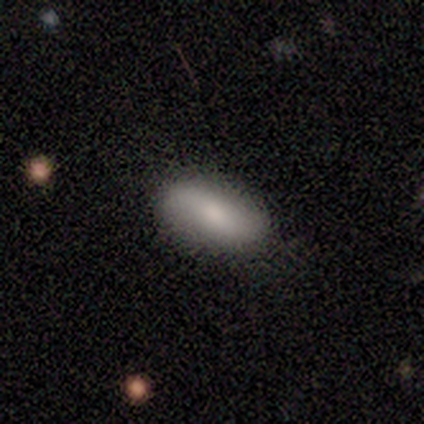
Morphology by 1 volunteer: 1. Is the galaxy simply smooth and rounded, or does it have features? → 100% featured or disk, 0% smooth, 0% star or artifact.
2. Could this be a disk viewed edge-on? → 100% no, 0% yes.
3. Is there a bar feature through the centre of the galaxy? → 100% weak, 0% strong, 0% no.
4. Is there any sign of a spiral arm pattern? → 100% yes, 0% no.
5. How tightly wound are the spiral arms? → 100% medium, 0% tight, 0% loose.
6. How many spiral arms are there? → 100% 2, 0% 1, 0% 3, 0% 4, 0% more than 4, 0% can't tell.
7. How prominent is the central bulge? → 100% moderate, 0% dominant, 0% large, 0% small, 0% none.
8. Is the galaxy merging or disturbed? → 100% minor disturbance, 0% none, 0% major disturbance, 0% merger.